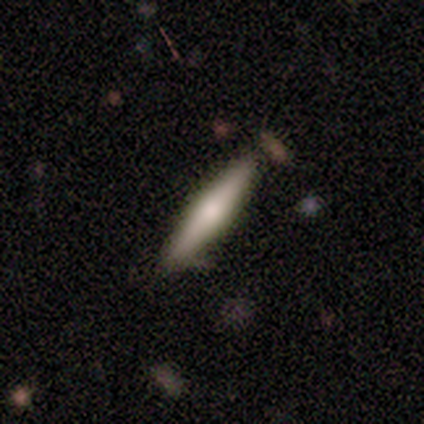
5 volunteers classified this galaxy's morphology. A smooth galaxy with no disk features (60%) that is cigar-shaped (100%).

Vote fractions:
- Smooth or featured? smooth: 60% / featured or disk: 40% / star or artifact: 0%
- How rounded? cigar-shaped: 100% / round: 0% / in between: 0%
- Merging? none: 100% / minor disturbance: 0% / major disturbance: 0% / merger: 0%